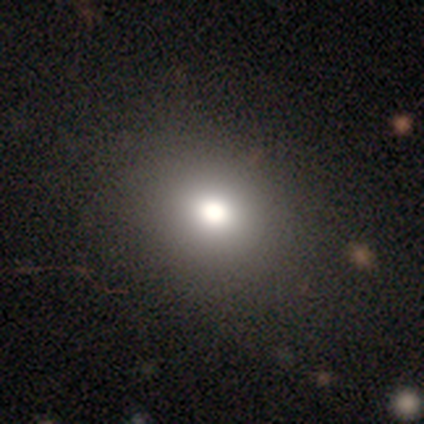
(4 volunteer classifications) This appears to be a smooth galaxy with no disk features (50%) that is round (100%). Merging: none (100%).